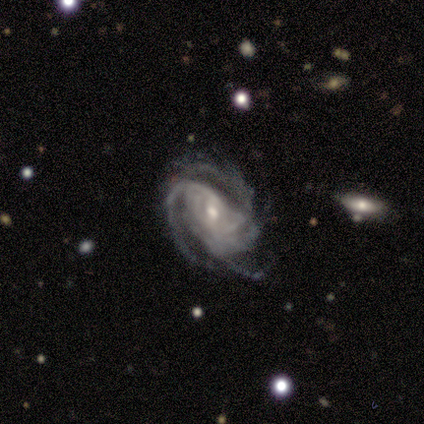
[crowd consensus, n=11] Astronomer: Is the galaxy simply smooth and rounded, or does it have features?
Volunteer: featured or disk — 100%.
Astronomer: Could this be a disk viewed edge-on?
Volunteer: no — 100%.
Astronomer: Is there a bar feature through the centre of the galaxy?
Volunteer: weak — 55% (runner-up: no, 45%).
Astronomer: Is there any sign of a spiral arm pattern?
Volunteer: yes — 100%.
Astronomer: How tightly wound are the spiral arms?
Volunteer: tight — 64%.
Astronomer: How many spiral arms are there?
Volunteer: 3 — 45% (runner-up: can't tell, 27%).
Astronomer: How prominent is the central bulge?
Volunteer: small — 64%.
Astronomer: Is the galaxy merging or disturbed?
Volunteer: none — 45%, tied with minor disturbance at 45%.